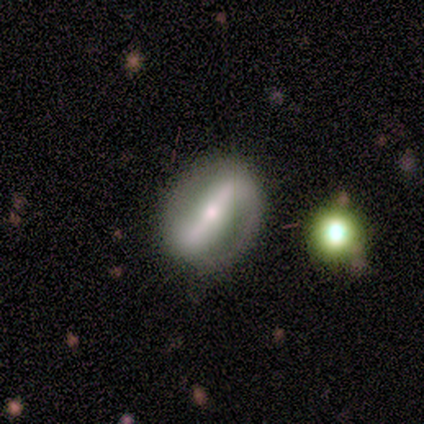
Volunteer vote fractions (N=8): smooth-or-featured: featured or disk: 75% | smooth: 12% | star or artifact: 12%
  disk-edge-on: no: 100% | yes: 0%
    bar: strong: 83% | weak: 17% | no: 0%
    has-spiral-arms: yes: 83% | no: 17%
      spiral-winding: loose: 60% | tight: 40% | medium: 0%
      spiral-arm-count: 2: 100% | 1: 0% | 3: 0% | 4: 0% | more than 4: 0% | can't tell: 0%
    bulge-size: small: 50% | moderate: 33% | large: 17% | dominant: 0% | none: 0%
  merging: none: 71% | minor disturbance: 29% | major disturbance: 0% | merger: 0%